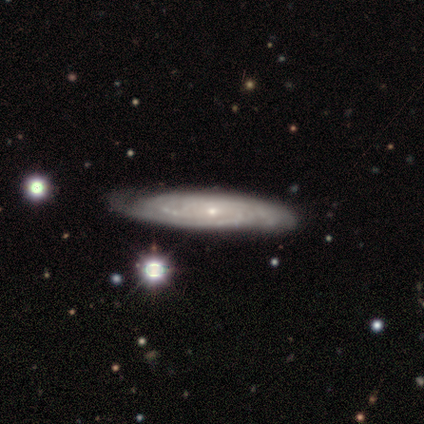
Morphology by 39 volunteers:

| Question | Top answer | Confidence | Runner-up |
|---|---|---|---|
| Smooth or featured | featured or disk | 82% | smooth (15%) |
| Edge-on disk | no | 84% | yes (16%) |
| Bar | no | 93% | strong (4%) |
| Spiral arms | yes | 100% | — |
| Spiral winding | tight | 70% | medium (26%) |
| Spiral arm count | can't tell | 63% | 2 (22%) |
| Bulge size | small | 93% | large (4%) |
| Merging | none | 63% | minor disturbance (29%) |